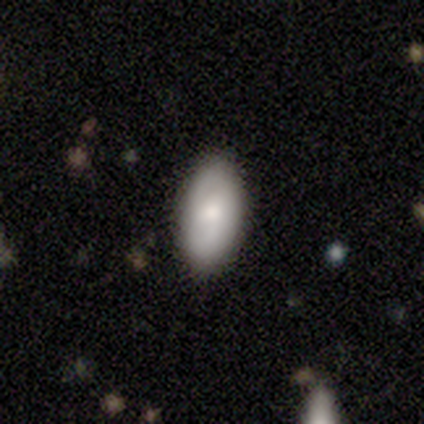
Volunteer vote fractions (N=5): Smooth or featured?
  - featured or disk: 60% *
  - smooth: 40%
  - star or artifact: 0%
Edge-on disk?
  - no: 100% *
  - yes: 0%
Bar?
  - weak: 67% *
  - no: 33%
  - strong: 0%
Spiral arms?
  - yes: 100% *
  - no: 0%
Spiral winding?
  - tight: 33% * (tied)
  - medium: 33% * (tied)
  - loose: 33% * (tied)
Spiral arm count?
  - can't tell: 100% *
  - 1: 0%
  - 2: 0%
  - 3: 0%
  - 4: 0%
  - more than 4: 0%
Bulge size?
  - moderate: 100% *
  - dominant: 0%
  - large: 0%
  - small: 0%
  - none: 0%
Merging?
  - none: 100% *
  - minor disturbance: 0%
  - major disturbance: 0%
  - merger: 0%